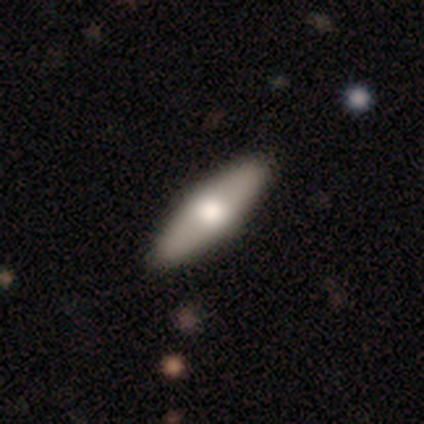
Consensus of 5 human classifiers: Volunteers were most divided on "smooth or featured": smooth: 60%, featured or disk: 40%, star or artifact: 0%. More confident: how rounded — in between (100%); merging — none (80%).